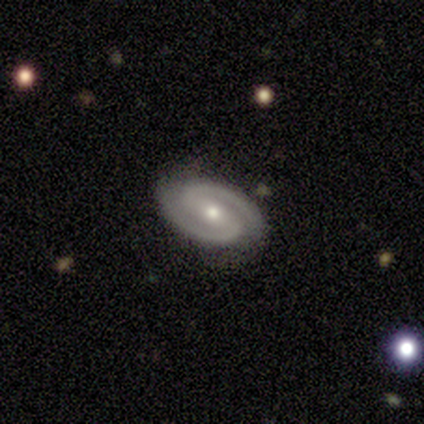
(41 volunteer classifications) A featured or disk galaxy (90%) with a strong bar (46%), 2 (100%) medium (51%) spiral arms (100%) and a moderate central bulge (70%).

Vote fractions:
- Smooth or featured? featured or disk: 90% / smooth: 7% / star or artifact: 2%
- Edge-on disk? no: 100% / yes: 0%
- Bar? strong: 46% / weak: 38% / no: 16%
- Spiral arms? yes: 100% / no: 0%
- Spiral winding? medium: 51% / tight: 46% / loose: 3%
- Spiral arm count? 2: 100% / 1: 0% / 3: 0% / 4: 0% / more than 4: 0% / can't tell: 0%
- Bulge size? moderate: 70% / small: 27% / large: 3% / dominant: 0% / none: 0%
- Merging? none: 88% / minor disturbance: 8% / major disturbance: 2% / merger: 2%